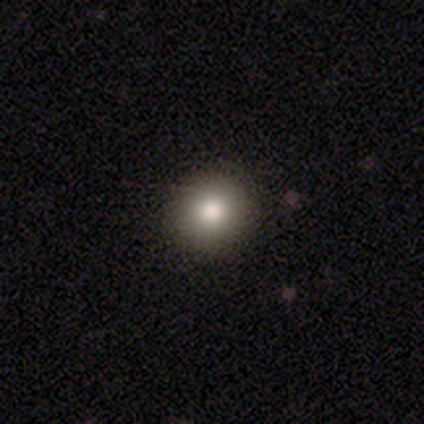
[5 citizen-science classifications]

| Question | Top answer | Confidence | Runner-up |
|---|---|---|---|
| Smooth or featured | smooth | 60% | star or artifact (40%) |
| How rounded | round | 100% | — |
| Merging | none | 100% | — |